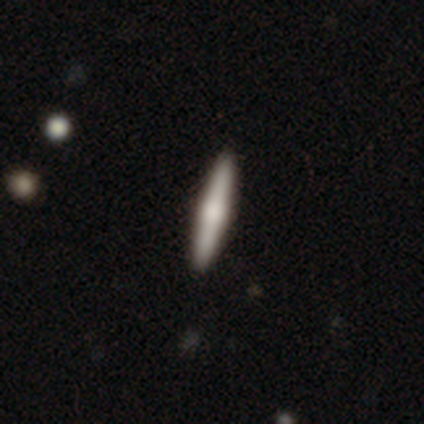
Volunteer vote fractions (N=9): featured or disk 67%, smooth 33%, star or artifact 0%. Down the decision tree: edge-on disk — yes (100%); edge-on bulge — rounded (100%); merging — none (89%).